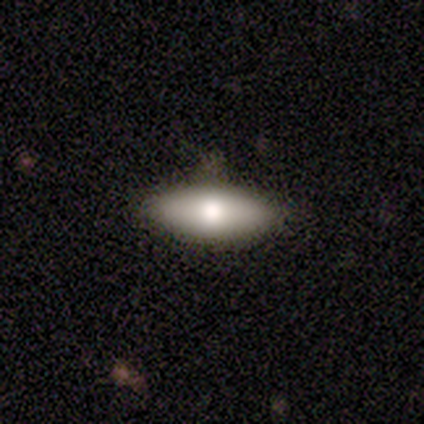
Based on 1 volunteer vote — Smooth or featured: star or artifact — 100%